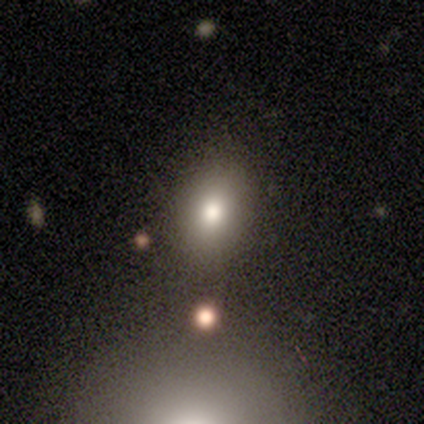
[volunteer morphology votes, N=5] A smooth galaxy with no disk features (100%) that is in between round and cigar-shaped (60%).

Vote fractions:
- Smooth or featured? smooth: 100% / featured or disk: 0% / star or artifact: 0%
- How rounded? in between: 60% / round: 20% / cigar-shaped: 20%
- Merging? minor disturbance: 60% / none: 40% / major disturbance: 0% / merger: 0%